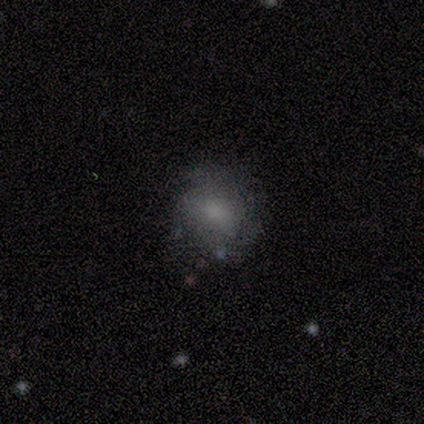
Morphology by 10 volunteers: Smooth or featured?
  - featured or disk: 60% *
  - smooth: 30%
  - star or artifact: 10%
Edge-on disk?
  - no: 100% *
  - yes: 0%
Bar?
  - weak: 50% * (tied)
  - no: 50% * (tied)
  - strong: 0%
Spiral arms?
  - yes: 83% *
  - no: 17%
Spiral winding?
  - tight: 40% * (tied)
  - loose: 40% * (tied)
  - medium: 20%
Spiral arm count?
  - 2: 40% * (tied)
  - can't tell: 40% * (tied)
  - 3: 20%
  - 1: 0%
  - 4: 0%
  - more than 4: 0%
Bulge size?
  - moderate: 50% *
  - small: 33%
  - none: 17%
  - dominant: 0%
  - large: 0%
Merging?
  - none: 56% *
  - minor disturbance: 44%
  - major disturbance: 0%
  - merger: 0%